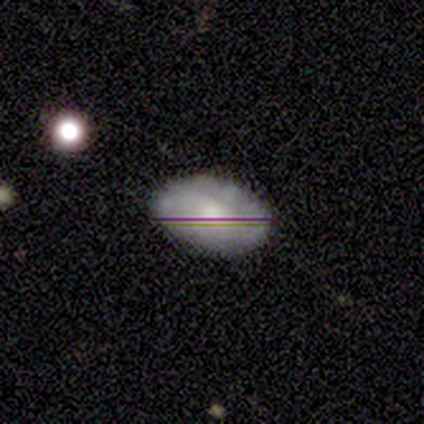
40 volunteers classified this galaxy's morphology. smooth 50%, featured or disk 35%, star or artifact 15%. Down the decision tree: how rounded — in between (90%); merging — none (79%).